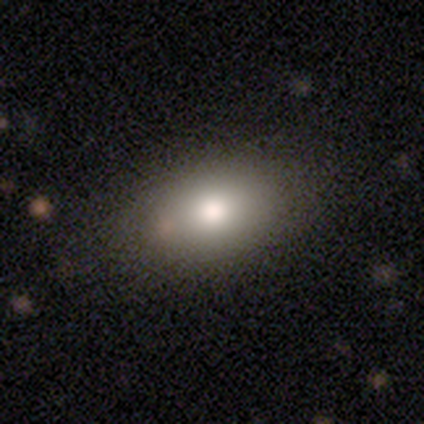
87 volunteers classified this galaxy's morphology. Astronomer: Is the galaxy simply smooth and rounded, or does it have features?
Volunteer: smooth — 77%.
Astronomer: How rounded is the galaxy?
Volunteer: in between — 73%.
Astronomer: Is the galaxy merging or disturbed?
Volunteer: none — 74%.